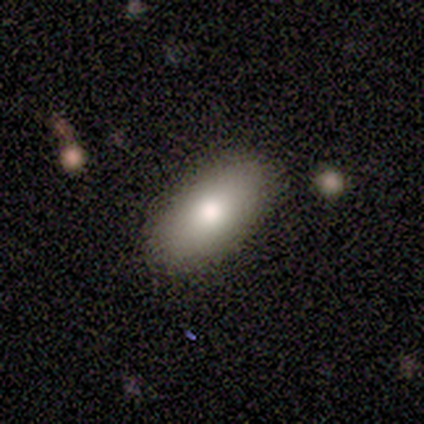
Morphology: type=smooth (80%); roundness=in between (100%); merging=none (80%).